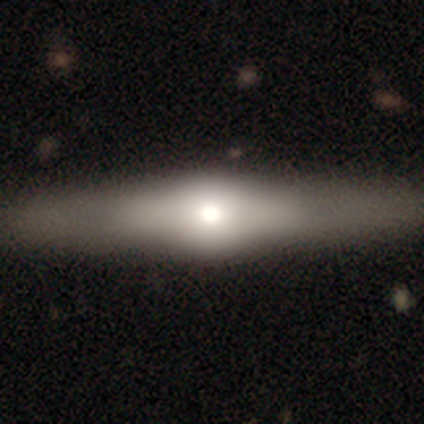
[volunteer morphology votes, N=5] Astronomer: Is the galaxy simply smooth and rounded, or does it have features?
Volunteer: featured or disk — 80%.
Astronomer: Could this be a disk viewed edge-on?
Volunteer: yes — 100%.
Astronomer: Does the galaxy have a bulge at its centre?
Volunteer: rounded — 100%.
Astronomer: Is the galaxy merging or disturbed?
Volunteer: none — 80%.